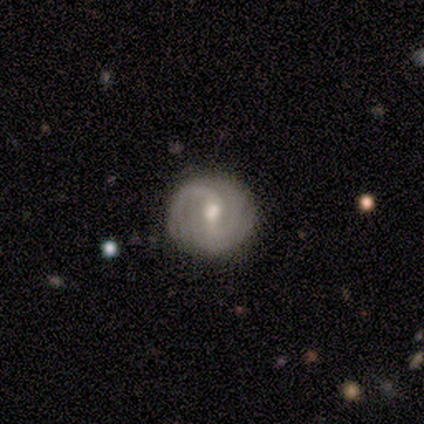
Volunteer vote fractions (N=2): Volunteers were most divided on "bar" (2-way tie): strong: 50%, weak: 50%, no: 0%; "bulge size" (2-way tie): large: 50%, moderate: 50%, dominant: 0%, small: 0%, none: 0%; "merging" (2-way tie): none: 50%, minor disturbance: 50%, major disturbance: 0%, merger: 0%. More confident: smooth or featured — featured or disk (100%); edge-on disk — no (100%); spiral arms — yes (100%); spiral winding — tight (100%); spiral arm count — 2 (100%).